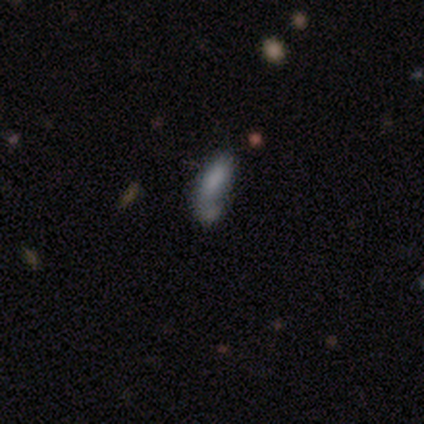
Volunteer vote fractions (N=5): A featured or disk galaxy (60%) with no bar (100%), 1 (100%) loose (100%) spiral arms (50%, tied with no) and no central bulge (100%).

Vote fractions:
- Smooth or featured? featured or disk: 60% / smooth: 40% / star or artifact: 0%
- Edge-on disk? no: 67% / yes: 33%
- Bar? no: 100% / strong: 0% / weak: 0%
- Spiral arms? yes: 50% (tied) / no: 50% (tied)
- Spiral winding? loose: 100% / tight: 0% / medium: 0%
- Spiral arm count? 1: 100% / 2: 0% / 3: 0% / 4: 0% / more than 4: 0% / can't tell: 0%
- Bulge size? none: 100% / dominant: 0% / large: 0% / moderate: 0% / small: 0%
- Merging? none: 40% / minor disturbance: 20% / major disturbance: 20% / merger: 20%